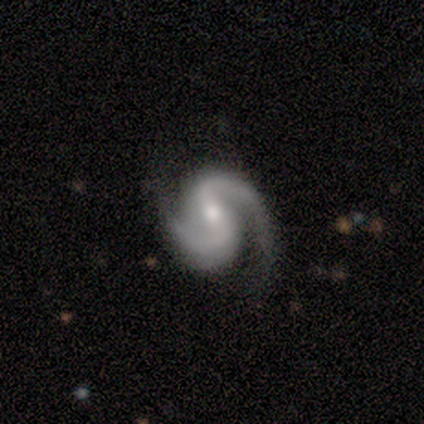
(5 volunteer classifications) Morphology: type=featured or disk (100%); edge-on=no (100%); bar=strong (40%, tied with no); spiral arms=yes (100%); winding=medium (80%); arm count=2 (100%); bulge=small (80%); merging=none (80%).